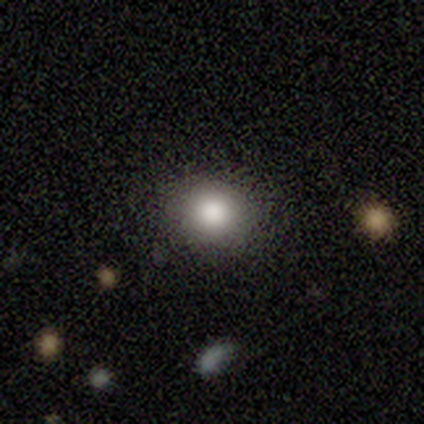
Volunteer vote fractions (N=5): smooth 40% (tied), featured or disk 40% (tied), star or artifact 20%. Down the decision tree: how rounded — round (100%); merging — none (100%).